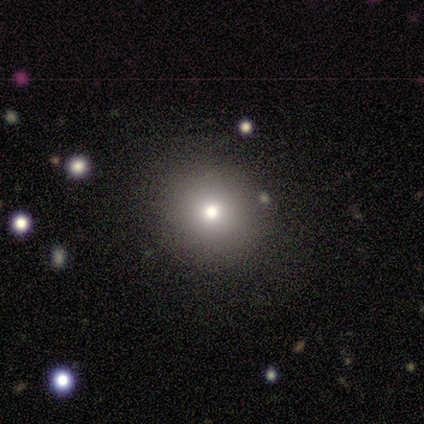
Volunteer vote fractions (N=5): Smooth or featured? 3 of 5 (60%) said smooth. How rounded? 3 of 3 (100%) said round. Merging? 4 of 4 (100%) said none.